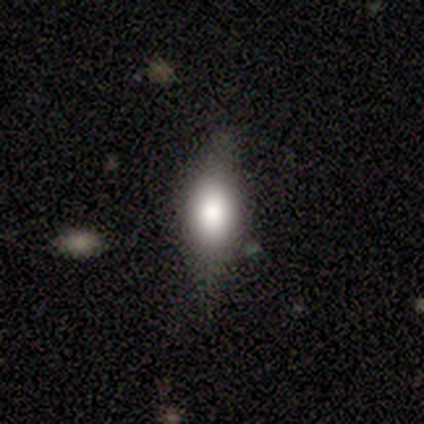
smooth 58%, featured or disk 39%, star or artifact 3%. Down the decision tree: how rounded — in between (68%); merging — none (78%).